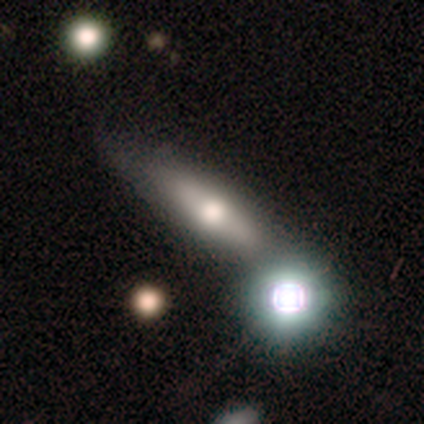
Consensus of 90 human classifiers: smooth-or-featured: featured or disk: 42% | smooth: 39% | star or artifact: 19%
  disk-edge-on: yes: 68% | no: 32%
    edge-on-bulge: rounded: 85% | boxy: 12% | none: 4%
  merging: none: 64% | minor disturbance: 19% | merger: 12% | major disturbance: 4%